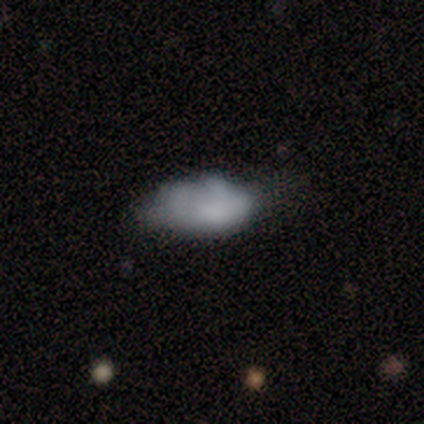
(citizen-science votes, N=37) featured or disk 49%, smooth 46%, star or artifact 5%. Down the decision tree: edge-on disk — no (100%); bar — no (89%); spiral arms — no (83%); bulge size — none (61%); merging — none (31%).